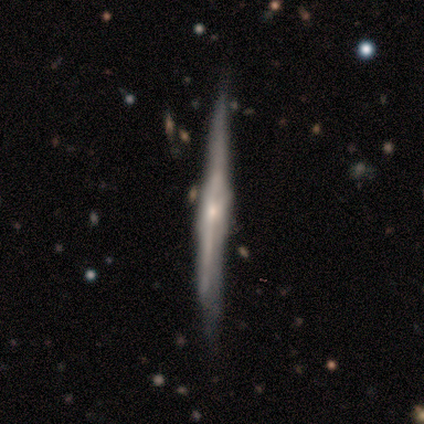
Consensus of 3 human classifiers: Volunteers were most divided on "smooth or featured" (3-way tie): smooth: 33%, featured or disk: 33%, star or artifact: 33%. More confident: how rounded — cigar-shaped (100%); merging — none (100%).